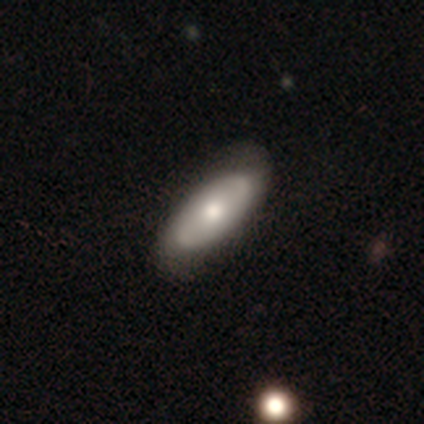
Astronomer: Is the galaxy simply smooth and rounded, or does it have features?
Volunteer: featured or disk — 54% (runner-up: smooth, 44%).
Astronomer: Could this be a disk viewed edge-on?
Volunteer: no — 90%.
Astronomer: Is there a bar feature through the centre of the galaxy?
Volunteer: no — 89%.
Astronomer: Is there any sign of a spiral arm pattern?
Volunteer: no — 53% (runner-up: yes, 47%).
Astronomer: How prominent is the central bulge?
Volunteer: moderate — 84%.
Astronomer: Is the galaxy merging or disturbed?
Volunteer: none — 66%.